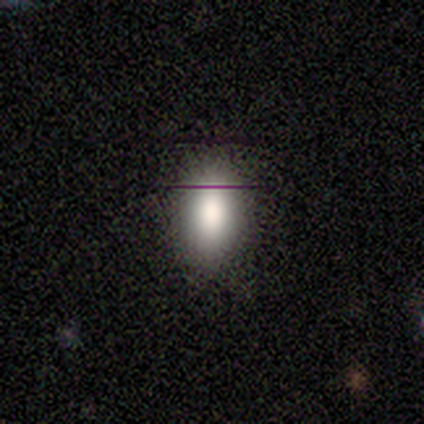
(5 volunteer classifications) Volunteers were most divided on "smooth or featured": smooth: 80%, star or artifact: 20%, featured or disk: 0%. More confident: how rounded — in between (100%); merging — none (100%).